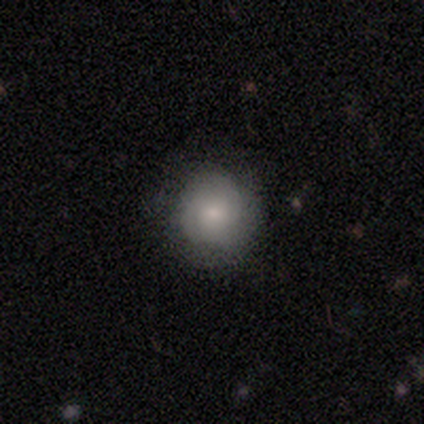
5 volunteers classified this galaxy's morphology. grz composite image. It shows a smooth galaxy with no disk features (60%) that is round (67%). Merging: none (80%).